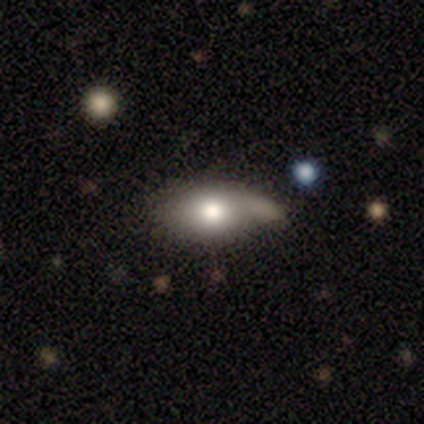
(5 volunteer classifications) Morphology: type=smooth (60%); roundness=in between (100%); merging=minor disturbance (50%).